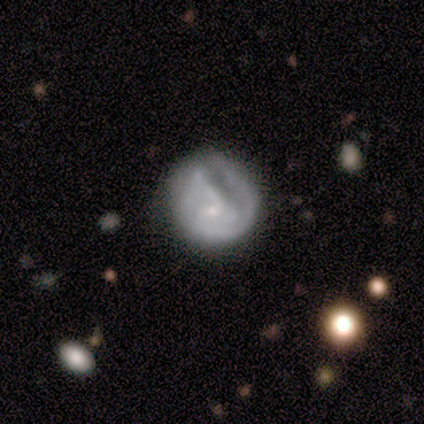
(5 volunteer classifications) smooth_or_featured: featured or disk (p=0.60) [alt: smooth p=0.40]
disk_edge_on: no (p=1.00)
bar: no (p=1.00)
has_spiral_arms: no (p=0.67) [alt: yes p=0.33]
bulge_size: small (p=1.00)
merging: none (p=0.60) [alt: major disturbance p=0.40]